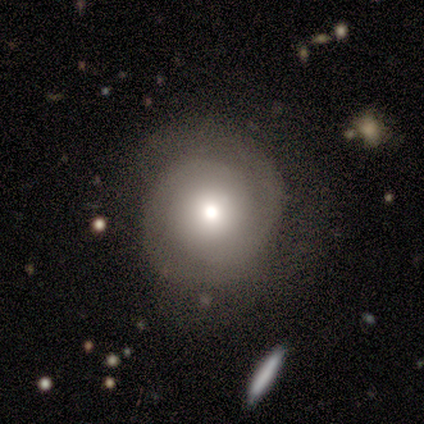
Smooth or featured? 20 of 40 (50%) said smooth. How rounded? 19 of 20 (95%) said round. Merging? 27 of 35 (77%) said none.